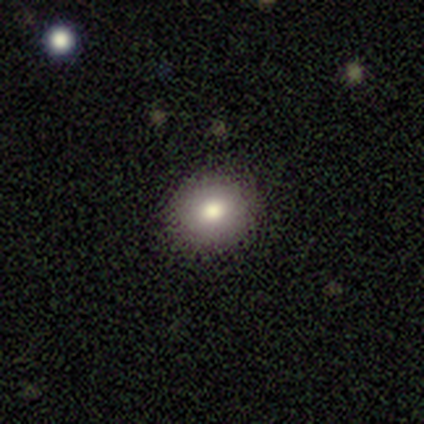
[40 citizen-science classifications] smooth_or_featured: smooth (p=0.85) [alt: featured or disk p=0.12]
how_rounded: round (p=0.74) [alt: in between p=0.26]
merging: none (p=0.92) [alt: minor disturbance p=0.08]